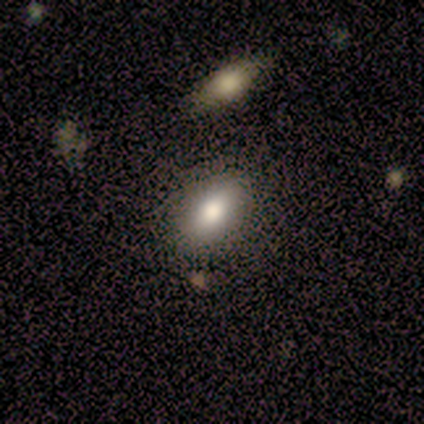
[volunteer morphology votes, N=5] Q: Smooth or featured?
A: smooth (100%)
Q: How rounded?
A: in between (100%)
Q: Merging?
A: none (100%)